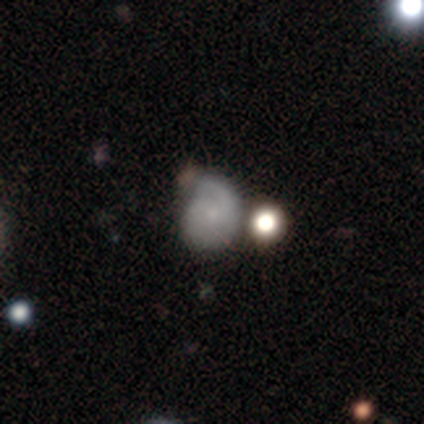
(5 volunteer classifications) A smooth galaxy with no disk features (60%) that is in between round and cigar-shaped (100%).

Vote fractions:
- Smooth or featured? smooth: 60% / featured or disk: 40% / star or artifact: 0%
- How rounded? in between: 100% / round: 0% / cigar-shaped: 0%
- Merging? major disturbance: 40% / none: 20% / minor disturbance: 20% / merger: 20%